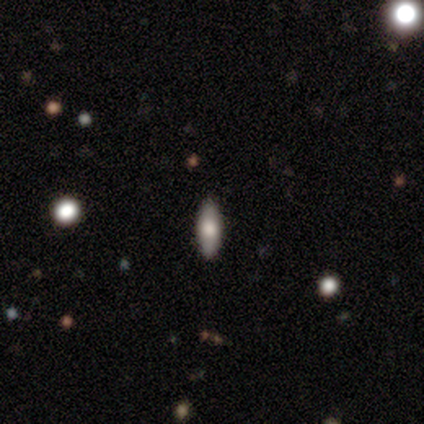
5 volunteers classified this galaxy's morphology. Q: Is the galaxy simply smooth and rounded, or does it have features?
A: smooth — 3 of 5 (60%).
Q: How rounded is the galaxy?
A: in between — 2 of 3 (67%).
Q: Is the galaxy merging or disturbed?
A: none — 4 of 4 (100%).